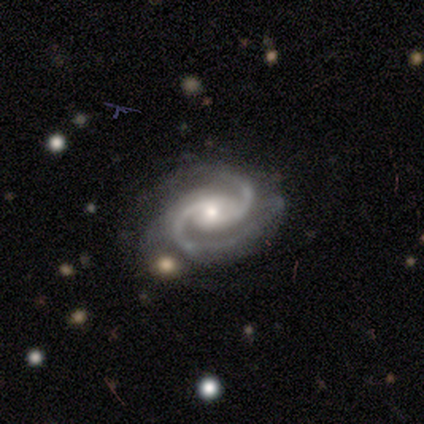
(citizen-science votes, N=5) smooth_or_featured: featured or disk (p=1.00)
disk_edge_on: no (p=1.00)
bar: no (p=0.60) [alt: weak p=0.40]
has_spiral_arms: yes (p=1.00)
spiral_winding: medium (p=1.00)
spiral_arm_count: 2 (p=0.80) [alt: 3 p=0.20]
bulge_size: moderate (p=0.60) [alt: large p=0.20]
merging: none (p=0.40) [tied with: merger p=0.40]